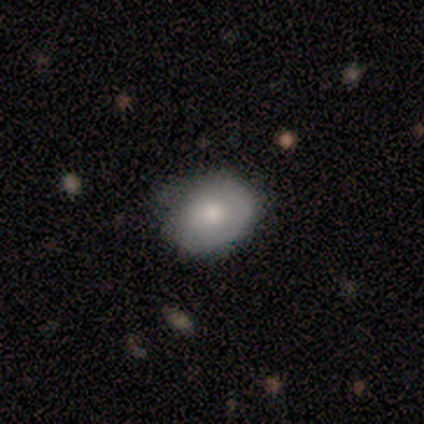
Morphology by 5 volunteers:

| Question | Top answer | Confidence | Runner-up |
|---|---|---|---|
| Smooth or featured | featured or disk | 60% | smooth (40%) |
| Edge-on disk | no | 100% | — |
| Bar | no | 100% | — |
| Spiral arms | yes | 67% | no (33%) |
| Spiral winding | tight | 50% | tied: loose (50%) |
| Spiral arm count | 1 | 100% | — |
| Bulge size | large | 33% | tied: moderate (33%), small (33%) |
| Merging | minor disturbance | 60% | none (40%) |